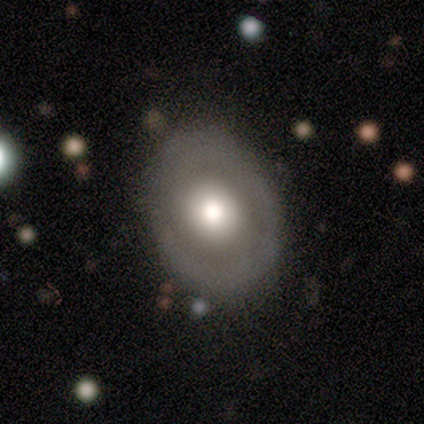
Overall: smooth (67%; featured or disk 33%). How rounded: round (50%, tied with in between). Merging: none (50%, tied with minor disturbance).